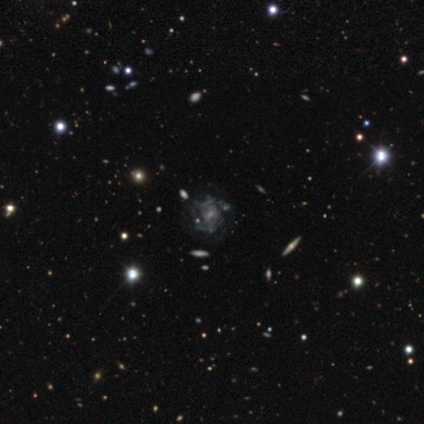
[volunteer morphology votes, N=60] smooth-or-featured: featured or disk: 80% | star or artifact: 13% | smooth: 7%
  disk-edge-on: no: 96% | yes: 4%
    bar: weak: 50% | no: 41% | strong: 9%
    has-spiral-arms: yes: 70% | no: 30%
      spiral-winding: tight: 69% | medium: 16% | loose: 16%
      spiral-arm-count: can't tell: 53% | 2: 19% | 3: 19% | 1: 3% | 4: 3% | more than 4: 3%
    bulge-size: small: 52% | moderate: 26% | none: 20% | large: 2% | dominant: 0%
  merging: none: 52% | major disturbance: 21% | minor disturbance: 19% | merger: 8%